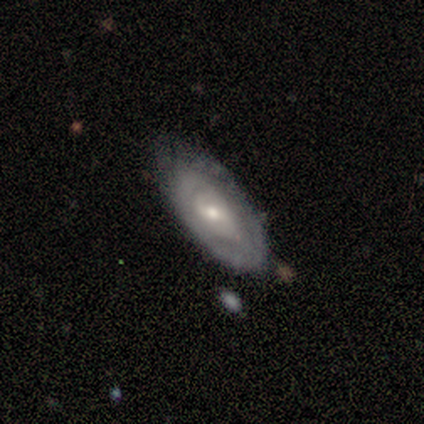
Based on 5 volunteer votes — This is clearly a featured or disk galaxy (100%). It is clearly not viewed edge-on (100%). Bar: clearly no (80%). Spiral arm pattern: likely no (60%). Central bulge: marginally moderate (40%, tied with small). Merging: likely none (60%).